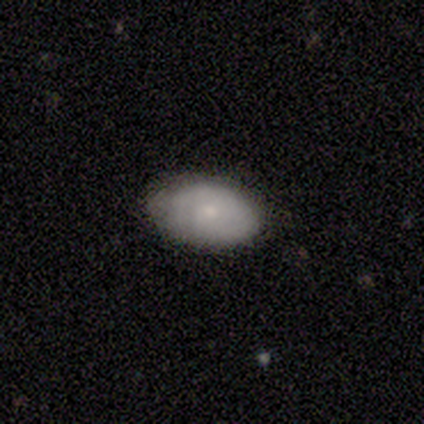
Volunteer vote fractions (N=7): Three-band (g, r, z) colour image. It shows a smooth galaxy with no disk features (86%) that is in between round and cigar-shaped (83%). Merging: none (71%).